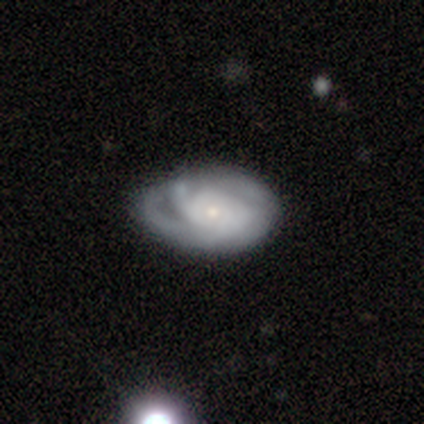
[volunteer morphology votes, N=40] A featured or disk galaxy (78%) with no bar (80%), tight (67%) spiral arms (90%) and a small central bulge (57%).

Vote fractions:
- Smooth or featured? featured or disk: 78% / smooth: 18% / star or artifact: 5%
- Edge-on disk? no: 97% / yes: 3%
- Bar? no: 80% / weak: 13% / strong: 7%
- Spiral arms? yes: 90% / no: 10%
- Spiral winding? tight: 67% / medium: 22% / loose: 11%
- Spiral arm count? can't tell: 52% / 3: 19% / 2: 11% / 1: 7% / more than 4: 7% / 4: 4%
- Bulge size? small: 57% / moderate: 43% / dominant: 0% / large: 0% / none: 0%
- Merging? none: 61% / minor disturbance: 37% / major disturbance: 3% / merger: 0%